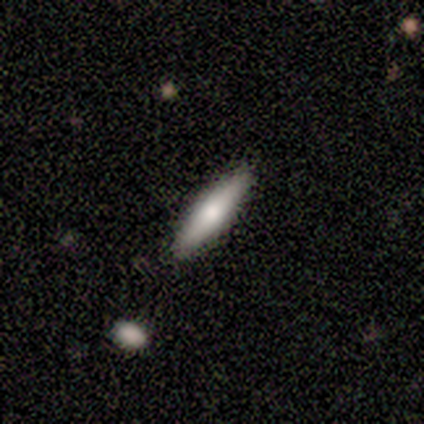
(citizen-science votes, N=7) smooth-or-featured: smooth: 57% | featured or disk: 43% | star or artifact: 0%
  how-rounded: in between: 50% (tied) | cigar-shaped: 50% (tied) | round: 0%
  merging: none: 100% | minor disturbance: 0% | major disturbance: 0% | merger: 0%